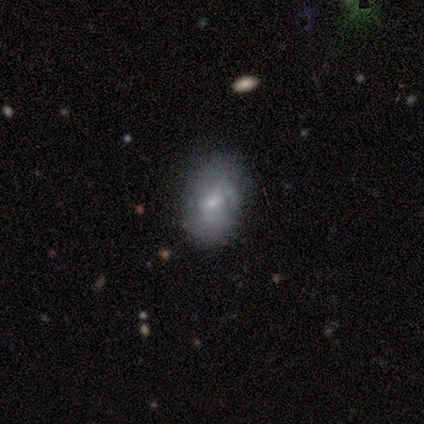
Smooth or featured?
  - smooth: 73% *
  - featured or disk: 27%
  - star or artifact: 0%
How rounded?
  - in between: 88% *
  - round: 12%
  - cigar-shaped: 0%
Merging?
  - none: 73% *
  - minor disturbance: 18%
  - major disturbance: 9%
  - merger: 0%